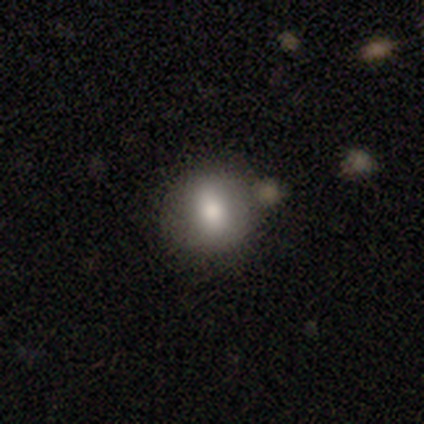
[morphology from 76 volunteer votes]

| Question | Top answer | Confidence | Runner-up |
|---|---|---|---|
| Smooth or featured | smooth | 83% | featured or disk (13%) |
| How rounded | round | 68% | in between (32%) |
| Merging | none | 45% | merger (8%) |